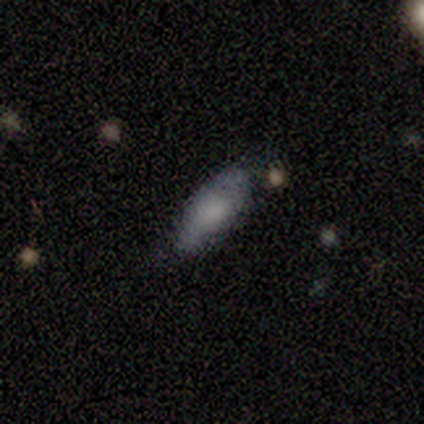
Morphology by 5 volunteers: Overall: smooth (100%). How rounded: in between (80%). Merging: none (80%).